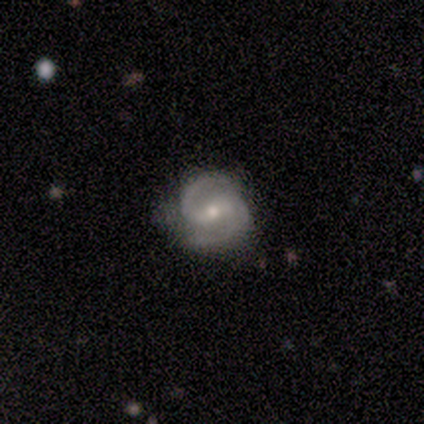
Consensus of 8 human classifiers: Smooth or featured?
  - featured or disk: 100% *
  - smooth: 0%
  - star or artifact: 0%
Edge-on disk?
  - no: 100% *
  - yes: 0%
Bar?
  - strong: 62% *
  - weak: 38%
  - no: 0%
Spiral arms?
  - yes: 100% *
  - no: 0%
Spiral winding?
  - medium: 62% *
  - tight: 38%
  - loose: 0%
Spiral arm count?
  - 2: 100% *
  - 1: 0%
  - 3: 0%
  - 4: 0%
  - more than 4: 0%
  - can't tell: 0%
Bulge size?
  - small: 50% *
  - moderate: 38%
  - none: 12%
  - dominant: 0%
  - large: 0%
Merging?
  - none: 88% *
  - minor disturbance: 12%
  - major disturbance: 0%
  - merger: 0%